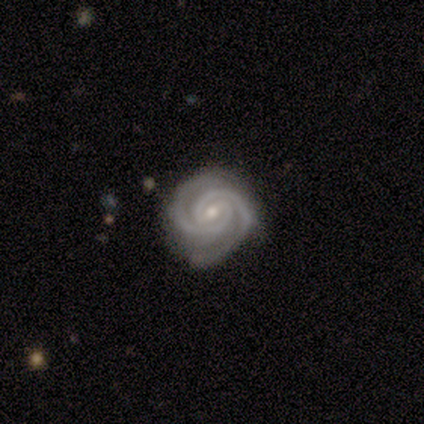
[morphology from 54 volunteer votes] Overall: featured or disk (94%). Edge-on disk: no (98%). Bar: weak (44%; strong 34%). Spiral arms: yes (100%). Spiral arm count: 2 (92%). Spiral winding: tight (86%). Bulge size: small (50%; moderate 48%). Merging: none (83%).